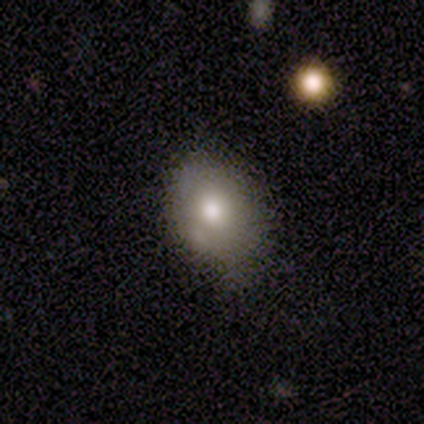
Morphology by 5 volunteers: A smooth galaxy with no disk features (80%) that is round (75%). Merging: none (80%).